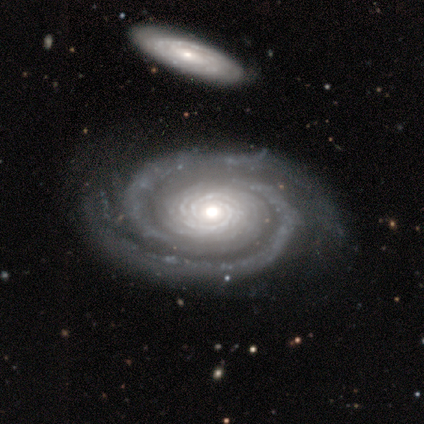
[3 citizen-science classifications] Overall: featured or disk (100%). Edge-on disk: no (100%). Bar: no (67%; weak 33%). Spiral arms: yes (100%). Spiral arm count: 2 (67%; can't tell 33%). Spiral winding: tight (100%). Bulge size: moderate (67%; small 33%). Merging: none (100%).